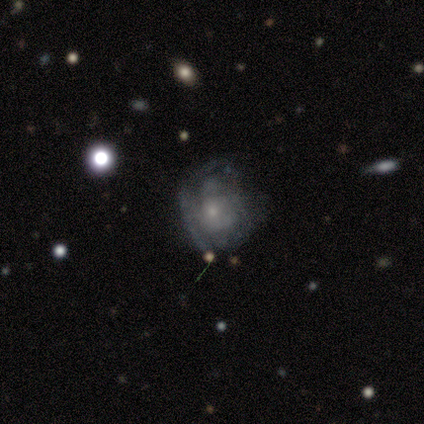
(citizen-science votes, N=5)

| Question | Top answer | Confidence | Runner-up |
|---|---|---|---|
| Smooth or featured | featured or disk | 80% | smooth (20%) |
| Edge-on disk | no | 100% | — |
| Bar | no | 100% | — |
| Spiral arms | yes | 75% | no (25%) |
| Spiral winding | tight | 67% | medium (33%) |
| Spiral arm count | can't tell | 100% | — |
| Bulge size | small | 100% | — |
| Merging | major disturbance | 60% | none (20%) |